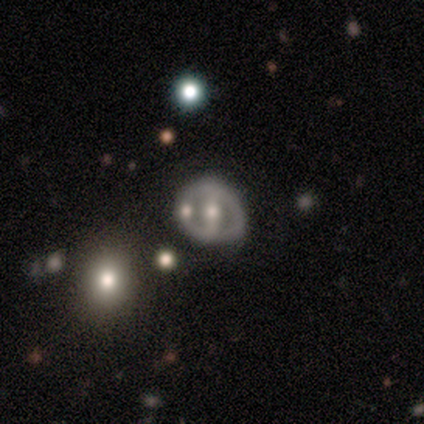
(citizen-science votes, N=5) Morphology: type=featured or disk (100%); edge-on=no (60%); bar=strong (67%); spiral arms=yes (67%); winding=tight (50%, tied with loose); arm count=1 (50%, tied with can't tell); bulge=moderate (67%); merging=none (60%).